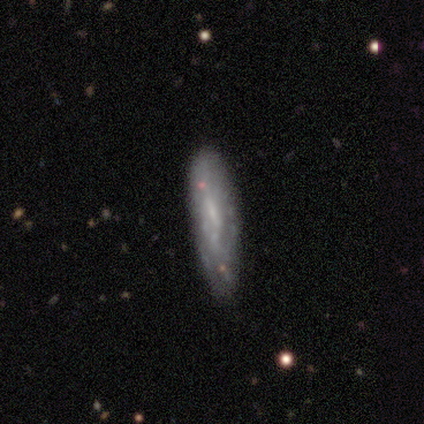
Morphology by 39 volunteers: Smooth or featured?
  - featured or disk: 54% *
  - smooth: 38%
  - star or artifact: 8%
Edge-on disk?
  - no: 81% *
  - yes: 19%
Bar?
  - no: 47% *
  - weak: 41%
  - strong: 12%
Spiral arms?
  - no: 71% *
  - yes: 29%
Bulge size?
  - small: 47% *
  - none: 41%
  - moderate: 12%
  - dominant: 0%
  - large: 0%
Merging?
  - none: 61% *
  - minor disturbance: 17%
  - major disturbance: 17%
  - merger: 6%